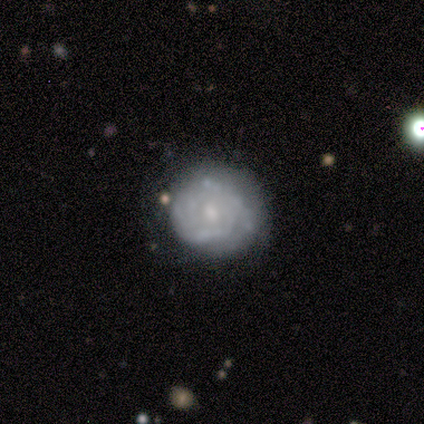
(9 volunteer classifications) smooth_or_featured: smooth (p=0.56) [alt: featured or disk p=0.44]
how_rounded: round (p=1.00)
merging: none (p=0.56) [alt: minor disturbance p=0.33]